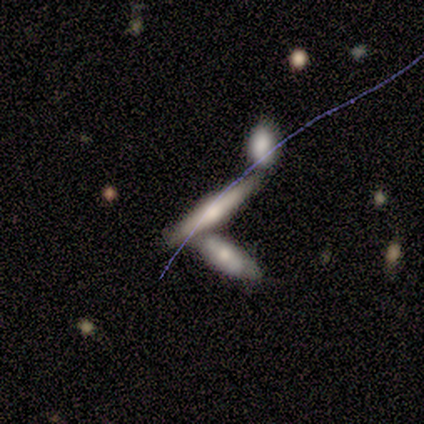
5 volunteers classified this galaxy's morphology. Smooth or featured?
  - featured or disk: 60% *
  - smooth: 40%
  - star or artifact: 0%
Edge-on disk?
  - yes: 100% *
  - no: 0%
Edge-on bulge?
  - rounded: 67% *
  - boxy: 33%
  - none: 0%
Merging?
  - none: 80% *
  - merger: 20%
  - minor disturbance: 0%
  - major disturbance: 0%